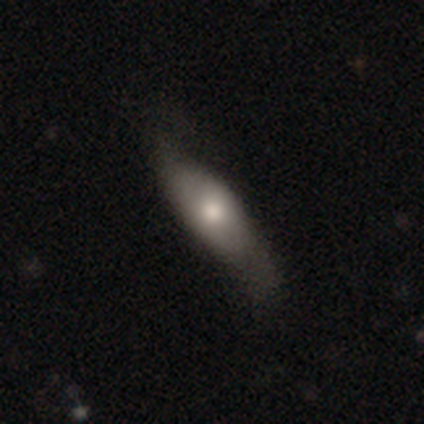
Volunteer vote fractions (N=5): smooth-or-featured: smooth: 100% | featured or disk: 0% | star or artifact: 0%
  how-rounded: cigar-shaped: 60% | in between: 40% | round: 0%
  merging: none: 40% (tied) | minor disturbance: 40% (tied) | major disturbance: 20% | merger: 0%